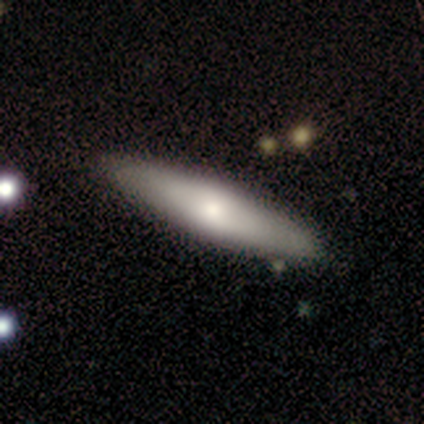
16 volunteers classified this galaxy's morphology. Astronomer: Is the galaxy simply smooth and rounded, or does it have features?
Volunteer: smooth — 69%.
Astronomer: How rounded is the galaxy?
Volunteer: cigar-shaped — 73%.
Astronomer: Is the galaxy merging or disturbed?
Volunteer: none — 88%.